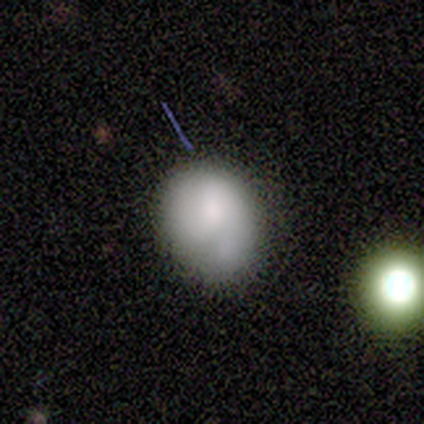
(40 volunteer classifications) A smooth galaxy with no disk features (52%) that is in between round and cigar-shaped (67%). Merging: none (45%).